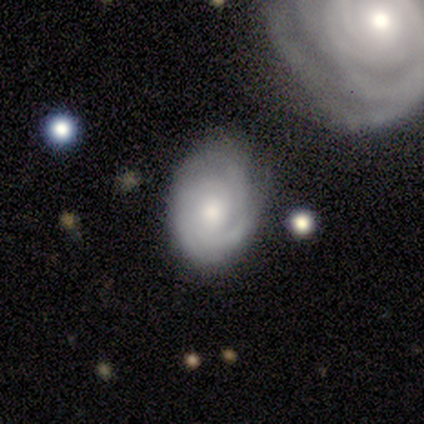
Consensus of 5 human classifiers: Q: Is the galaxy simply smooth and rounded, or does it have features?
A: smooth — 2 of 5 (40%, tied with featured or disk).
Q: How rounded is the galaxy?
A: in between — 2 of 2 (100%).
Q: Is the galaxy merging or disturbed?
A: none — 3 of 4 (75%).